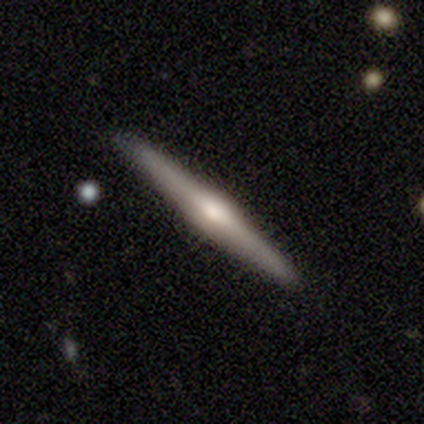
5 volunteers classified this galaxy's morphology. A featured or disk galaxy (60%) viewed edge-on (100%) with a rounded central bulge (100%).

Vote fractions:
- Smooth or featured? featured or disk: 60% / smooth: 20% / star or artifact: 20%
- Edge-on disk? yes: 100% / no: 0%
- Edge-on bulge? rounded: 100% / boxy: 0% / none: 0%
- Merging? none: 100% / minor disturbance: 0% / major disturbance: 0% / merger: 0%